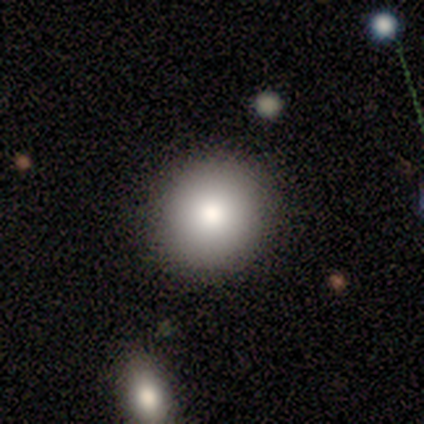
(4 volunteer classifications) This appears to be a smooth galaxy with no disk features (100%) that is round (100%). Merging: none (100%).